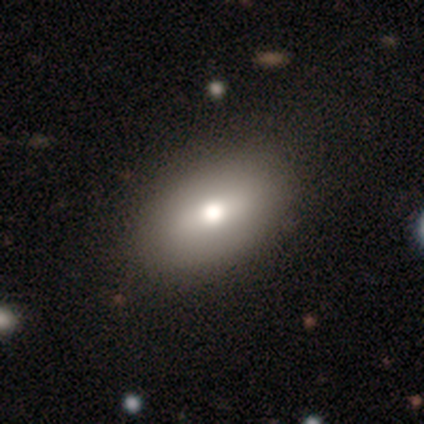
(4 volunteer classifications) Smooth or featured: smooth — 50% (tied with featured or disk — 50%)
How rounded: in between — 100%
Merging: none — 100%